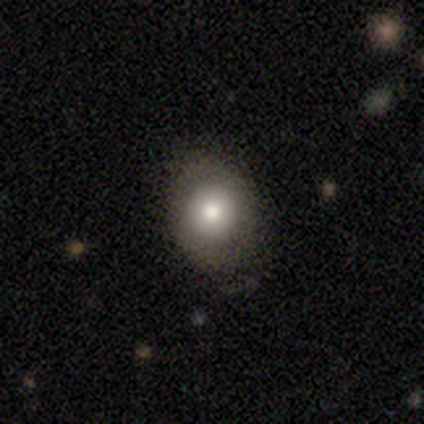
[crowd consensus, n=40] Volunteers were most divided on "how rounded": round: 52%, in between: 48%, cigar-shaped: 0%. Remaining: smooth or featured — smooth (57%); merging — none (41%).